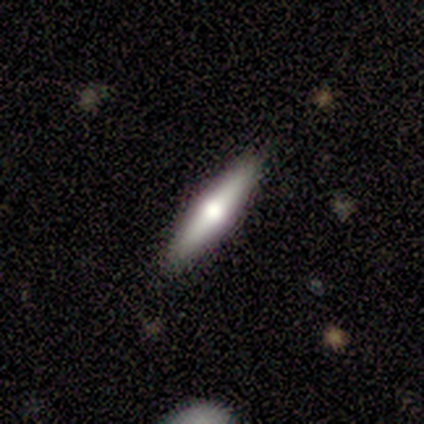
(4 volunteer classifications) This appears to be a featured or disk galaxy (75%) viewed edge-on (100%) with a rounded central bulge (100%). Merging: none (100%).